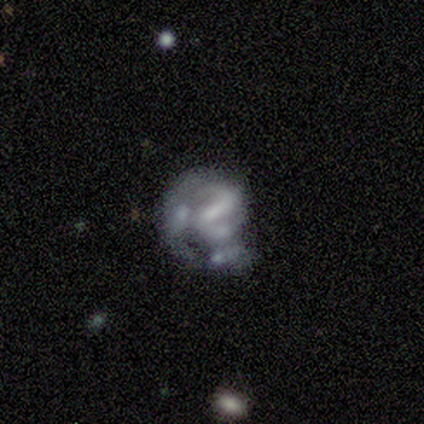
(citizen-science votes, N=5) Q: Smooth or featured?
A: featured or disk (60%); runner-up: smooth (40%)
Q: Edge-on disk?
A: no (100%)
Q: Bar?
A: no (67%); runner-up: weak (33%)
Q: Spiral arms?
A: no (67%); runner-up: yes (33%)
Q: Bulge size?
A: none (67%); runner-up: moderate (33%)
Q: Merging?
A: none (40%); runner-up: minor disturbance (20%)